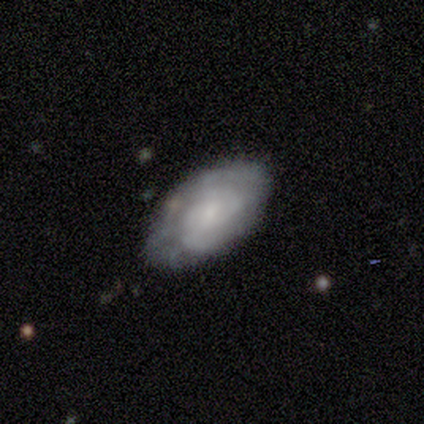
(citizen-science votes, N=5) smooth_or_featured: featured or disk (p=1.00)
disk_edge_on: no (p=0.80) [alt: yes p=0.20]
bar: weak (p=0.50) [alt: strong p=0.25]
has_spiral_arms: yes (p=0.75) [alt: no p=0.25]
spiral_winding: tight (p=0.67) [alt: loose p=0.33]
spiral_arm_count: 2 (p=0.67) [alt: can't tell p=0.33]
bulge_size: moderate (p=0.50) [tied with: small p=0.50]
merging: minor disturbance (p=0.60) [alt: none p=0.40]